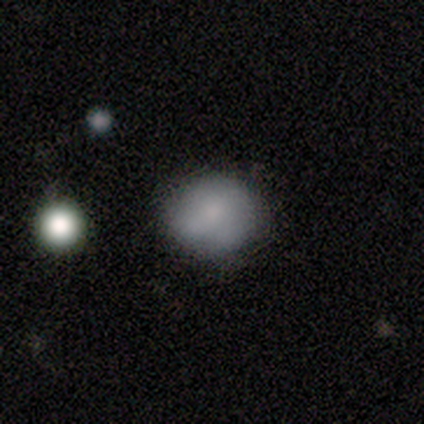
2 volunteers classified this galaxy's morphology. Smooth or featured? 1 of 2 (50%, tied with featured or disk) said smooth. How rounded? 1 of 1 (100%) said round. Merging? 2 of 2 (100%) said none.